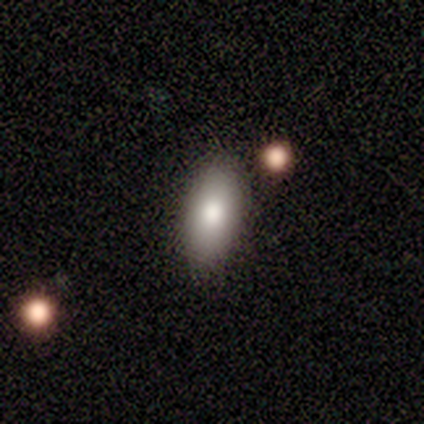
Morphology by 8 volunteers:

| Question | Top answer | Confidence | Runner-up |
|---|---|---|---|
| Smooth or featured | smooth | 50% | featured or disk (25%) |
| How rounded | in between | 100% | — |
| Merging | none | 100% | — |